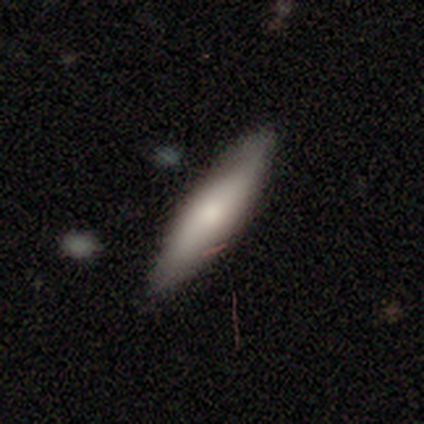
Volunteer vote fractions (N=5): Morphology: type=smooth (100%); roundness=cigar-shaped (60%); merging=none (100%).